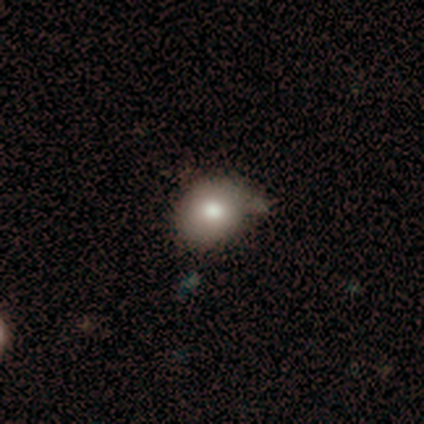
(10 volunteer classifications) smooth 80%, featured or disk 10%, star or artifact 10%. Down the decision tree: how rounded — round (75%); merging — none (44%, tied with minor disturbance).